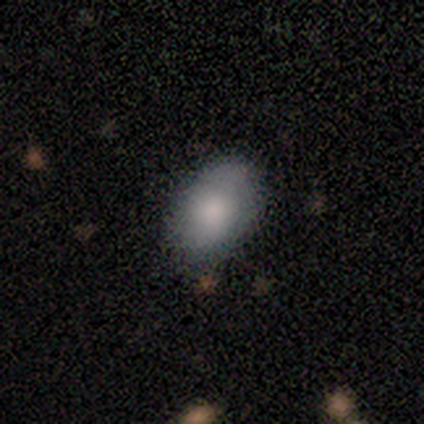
Consensus on every question: smooth or featured — smooth (100%); how rounded — in between (100%); merging — none (100%).